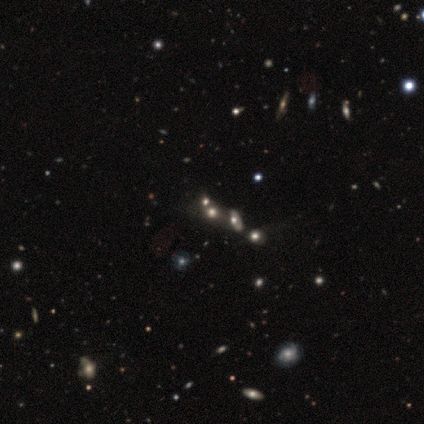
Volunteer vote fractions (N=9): Smooth or featured: star or artifact — 44% (smooth — 33%)